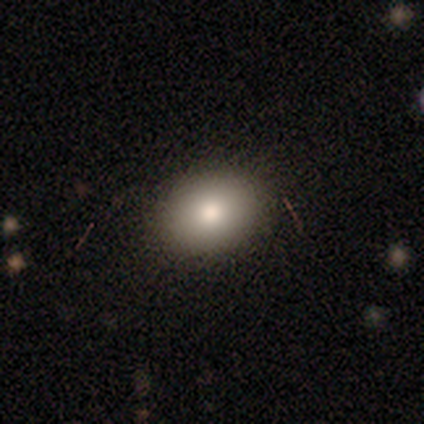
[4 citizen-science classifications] Q: Smooth or featured?
A: smooth (100%)
Q: How rounded?
A: in between (100%)
Q: Merging?
A: none (100%)